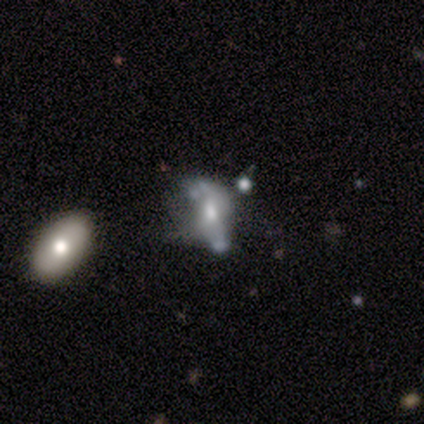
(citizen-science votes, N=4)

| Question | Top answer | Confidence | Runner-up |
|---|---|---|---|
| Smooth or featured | star or artifact | 50% | smooth (25%) |